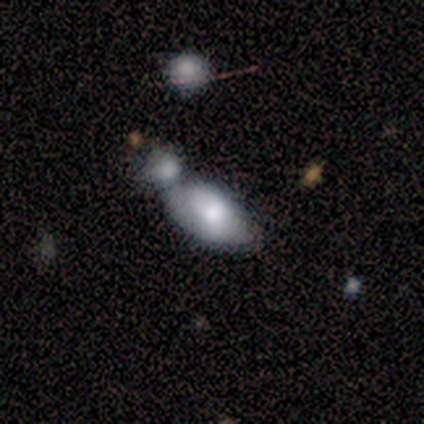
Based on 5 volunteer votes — This is clearly a smooth galaxy (100%). How rounded: clearly in between (100%). Merging: marginally none (40%, tied with merger).